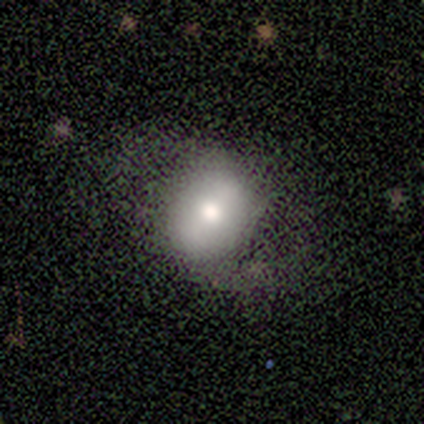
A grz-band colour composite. It shows a smooth galaxy with no disk features (60%) that is round (67%). Merging: none (80%).